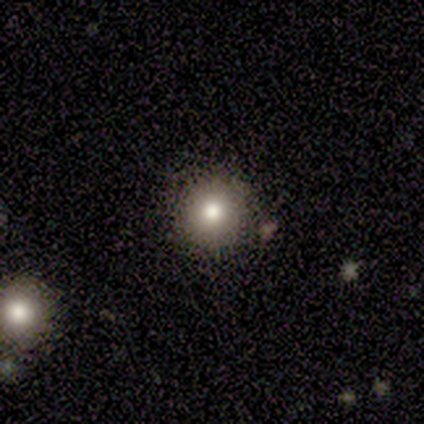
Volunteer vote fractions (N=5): Q: Smooth or featured?
A: star or artifact (60%); runner-up: smooth (40%)